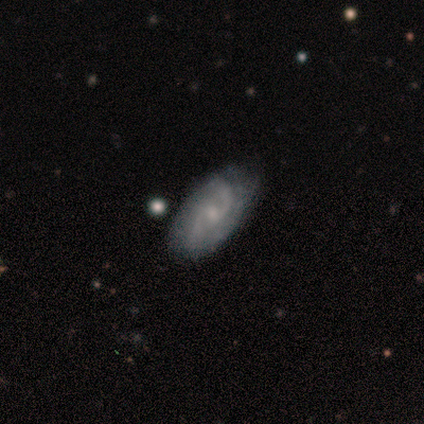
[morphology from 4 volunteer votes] featured or disk 100%, smooth 0%, star or artifact 0%. Down the decision tree: edge-on disk — no (100%); bar — weak (50%, tied with no); spiral arms — yes (100%); spiral arm count — 2 (100%); spiral winding — medium (75%); bulge size — moderate (50%, tied with small); merging — none (100%).